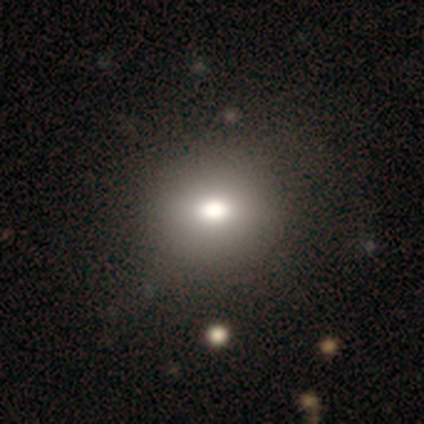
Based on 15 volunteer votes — Overall: smooth (73%). How rounded: round (73%). Merging: none (100%).